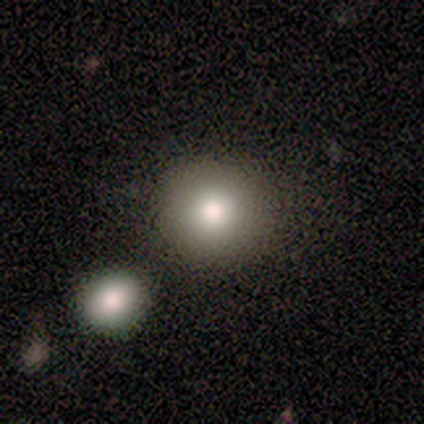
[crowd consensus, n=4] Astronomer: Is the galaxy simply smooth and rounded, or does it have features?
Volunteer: smooth — 75%.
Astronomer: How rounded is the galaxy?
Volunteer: round — 67%.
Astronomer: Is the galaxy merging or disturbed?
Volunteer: none — 50%, tied with merger at 50%.